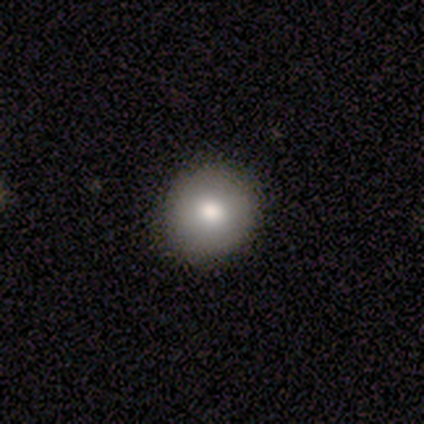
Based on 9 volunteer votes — smooth-or-featured: smooth: 78% | featured or disk: 11% | star or artifact: 11%
  how-rounded: round: 100% | in between: 0% | cigar-shaped: 0%
  merging: none: 100% | minor disturbance: 0% | major disturbance: 0% | merger: 0%